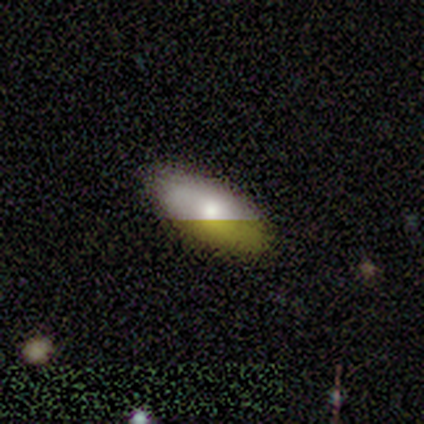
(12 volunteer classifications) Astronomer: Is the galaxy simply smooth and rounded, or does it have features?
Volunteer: featured or disk — 58%.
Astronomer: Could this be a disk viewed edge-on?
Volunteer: no — 100%.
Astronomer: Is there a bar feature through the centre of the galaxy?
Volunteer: no — 100%.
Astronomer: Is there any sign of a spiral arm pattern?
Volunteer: no — 100%.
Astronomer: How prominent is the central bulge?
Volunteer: moderate — 43% (runner-up: large, 29%).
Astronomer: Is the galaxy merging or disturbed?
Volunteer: none — 82%.